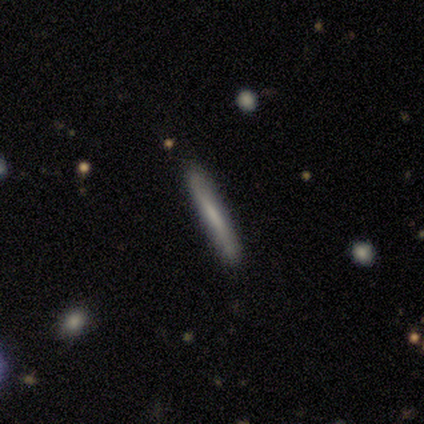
Smooth or featured: smooth — 75% (featured or disk — 25%)
How rounded: cigar-shaped — 100%
Merging: none — 100%